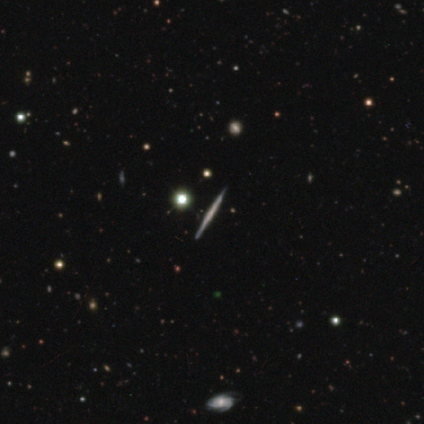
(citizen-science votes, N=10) Volunteers were most divided on "smooth or featured": featured or disk: 80%, smooth: 10%, star or artifact: 10%. More confident: edge-on disk — yes (100%); merging — none (100%); edge-on bulge — none (88%).